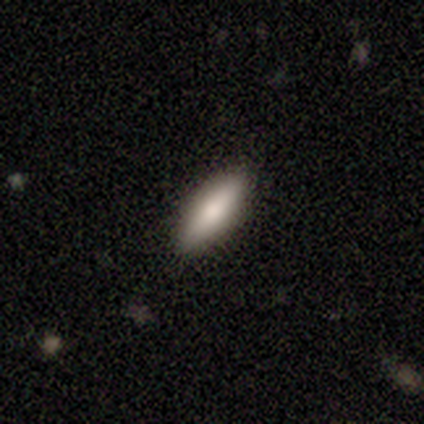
A smooth galaxy with no disk features (100%) that is in between round and cigar-shaped (60%). Merging: none (100%).